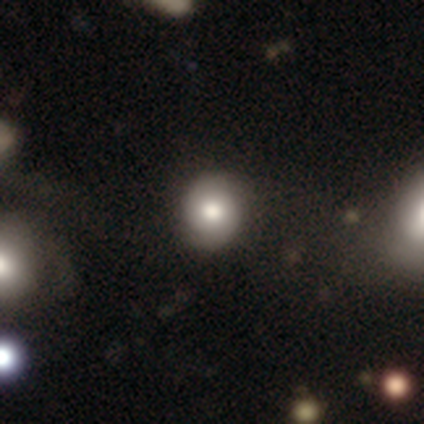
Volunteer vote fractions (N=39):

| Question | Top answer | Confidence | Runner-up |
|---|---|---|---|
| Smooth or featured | smooth | 67% | featured or disk (28%) |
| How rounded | round | 81% | in between (19%) |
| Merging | none | 70% | major disturbance (5%) |